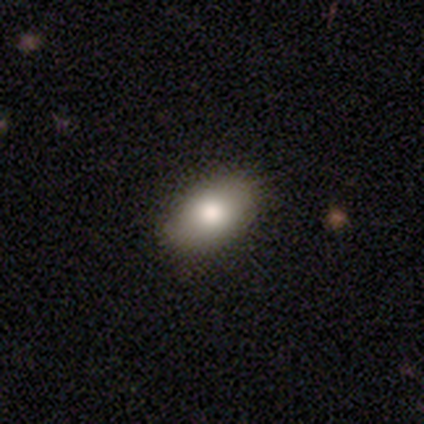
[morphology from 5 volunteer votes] Volunteers were most divided on "merging": none: 60%, minor disturbance: 40%, major disturbance: 0%, merger: 0%. More confident: smooth or featured — smooth (100%); how rounded — in between (100%).